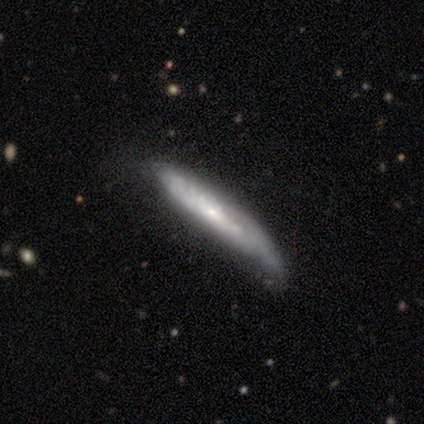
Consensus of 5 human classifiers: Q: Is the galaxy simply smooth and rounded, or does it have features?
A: featured or disk — 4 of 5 (80%).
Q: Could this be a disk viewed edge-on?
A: yes — 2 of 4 (50%, tied with no).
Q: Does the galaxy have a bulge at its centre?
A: none — 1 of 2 (50%, tied with rounded).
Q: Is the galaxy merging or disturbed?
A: minor disturbance — 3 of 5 (60%).